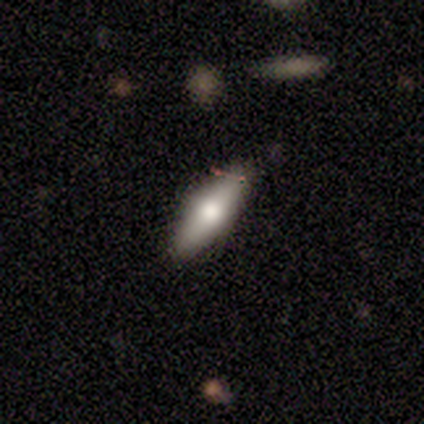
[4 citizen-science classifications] smooth_or_featured: smooth (p=1.00)
how_rounded: in between (p=1.00)
merging: none (p=1.00)